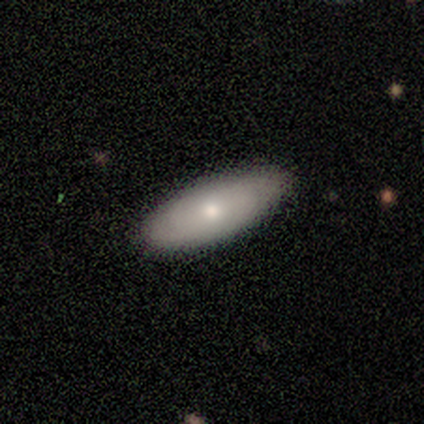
Q: Smooth or featured?
A: smooth (60%); runner-up: featured or disk (40%)
Q: How rounded?
A: cigar-shaped (67%); runner-up: in between (33%)
Q: Merging?
A: none (80%); runner-up: minor disturbance (20%)